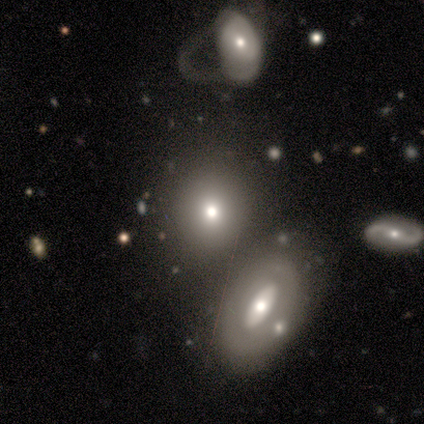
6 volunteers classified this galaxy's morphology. smooth-or-featured: smooth: 67% | featured or disk: 33% | star or artifact: 0%
  how-rounded: round: 100% | in between: 0% | cigar-shaped: 0%
  merging: none: 100% | minor disturbance: 0% | major disturbance: 0% | merger: 0%